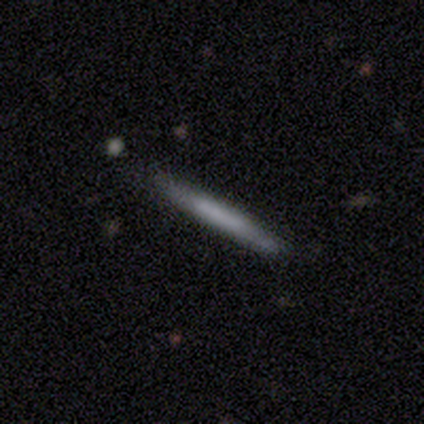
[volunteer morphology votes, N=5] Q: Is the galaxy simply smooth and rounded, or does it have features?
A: smooth — 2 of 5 (40%, tied with featured or disk).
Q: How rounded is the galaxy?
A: cigar-shaped — 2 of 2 (100%).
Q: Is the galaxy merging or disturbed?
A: none — 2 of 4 (50%).